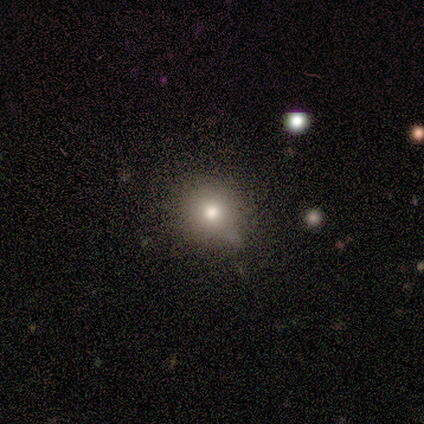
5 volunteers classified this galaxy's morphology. smooth-or-featured: smooth: 80% | star or artifact: 20% | featured or disk: 0%
  how-rounded: round: 100% | in between: 0% | cigar-shaped: 0%
  merging: none: 50% (tied) | minor disturbance: 50% (tied) | major disturbance: 0% | merger: 0%